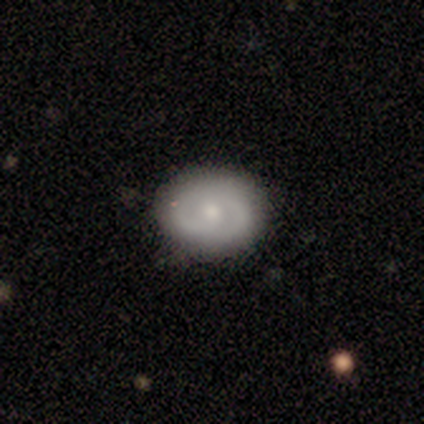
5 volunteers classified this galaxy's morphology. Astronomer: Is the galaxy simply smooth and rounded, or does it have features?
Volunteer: featured or disk — 80%.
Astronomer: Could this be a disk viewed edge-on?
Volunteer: no — 100%.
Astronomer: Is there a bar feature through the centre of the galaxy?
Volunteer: no — 75%.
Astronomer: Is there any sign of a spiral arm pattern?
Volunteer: yes — 75%.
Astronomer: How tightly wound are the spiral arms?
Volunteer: tight — 67%.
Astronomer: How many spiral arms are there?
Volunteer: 2 — 100%.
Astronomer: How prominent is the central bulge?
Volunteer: moderate — 50%.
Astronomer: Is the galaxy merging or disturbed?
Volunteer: none — 80%.